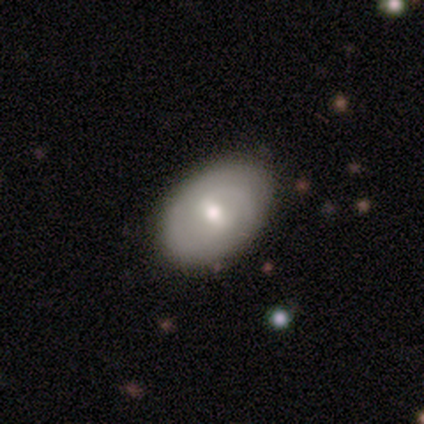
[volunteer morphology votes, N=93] type=featured or disk (45%); edge-on=no (98%); bar=weak (54%); spiral arms=yes (66%); winding=tight (44%, tied with medium); arm count=2 (48%); bulge=moderate (66%); merging=none (84%).